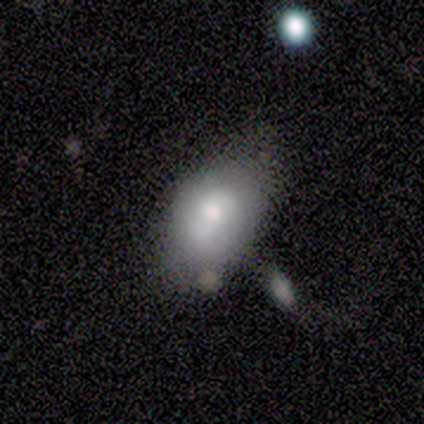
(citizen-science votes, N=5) smooth 60%, featured or disk 40%, star or artifact 0%. Down the decision tree: how rounded — in between (67%); merging — none (40%).